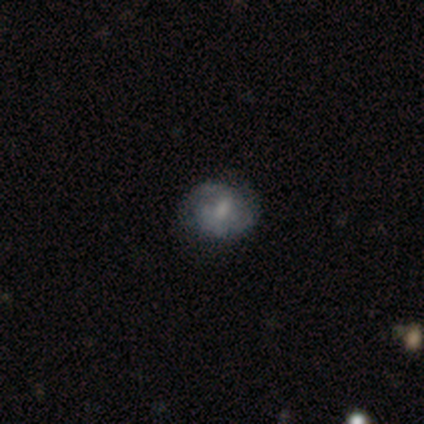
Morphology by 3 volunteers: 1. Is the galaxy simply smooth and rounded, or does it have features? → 67% featured or disk, 33% smooth, 0% star or artifact.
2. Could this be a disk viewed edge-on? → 100% no, 0% yes.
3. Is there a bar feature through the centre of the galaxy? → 100% no, 0% strong, 0% weak.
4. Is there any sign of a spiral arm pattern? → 50% yes (tied), 50% no (tied).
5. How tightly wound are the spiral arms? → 100% medium, 0% tight, 0% loose.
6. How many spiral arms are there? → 100% 2, 0% 1, 0% 3, 0% 4, 0% more than 4, 0% can't tell.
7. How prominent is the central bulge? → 50% small (tied), 50% none (tied), 0% dominant, 0% large, 0% moderate.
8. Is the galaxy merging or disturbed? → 33% none (tied), 33% minor disturbance (tied), 33% major disturbance (tied), 0% merger.